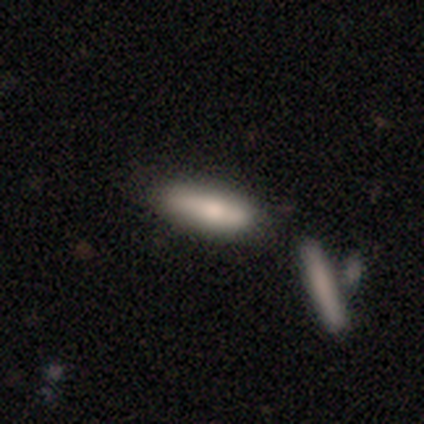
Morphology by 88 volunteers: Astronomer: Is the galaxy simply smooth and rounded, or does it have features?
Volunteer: smooth — 65%.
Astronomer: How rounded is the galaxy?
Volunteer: cigar-shaped — 68%.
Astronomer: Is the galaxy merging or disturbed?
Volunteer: none — 63%.